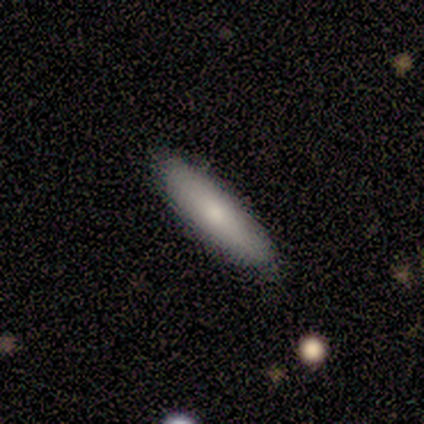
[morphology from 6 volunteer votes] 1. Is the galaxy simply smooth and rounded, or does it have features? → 83% smooth, 17% featured or disk, 0% star or artifact.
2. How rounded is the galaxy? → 80% cigar-shaped, 20% in between, 0% round.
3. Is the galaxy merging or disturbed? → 100% none, 0% minor disturbance, 0% major disturbance, 0% merger.